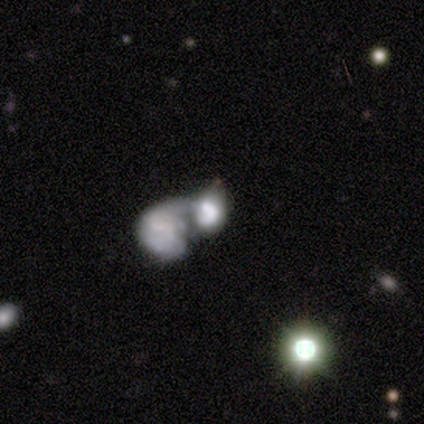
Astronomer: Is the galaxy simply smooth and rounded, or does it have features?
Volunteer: smooth — 80%.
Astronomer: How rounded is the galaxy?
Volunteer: in between — 100%.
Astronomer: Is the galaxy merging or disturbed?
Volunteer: merger — 60% (runner-up: major disturbance, 40%).